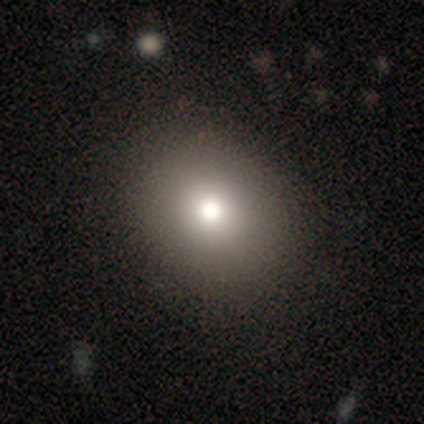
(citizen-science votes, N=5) Volunteers were most divided on "how rounded": round: 75%, in between: 25%, cigar-shaped: 0%. More confident: merging — none (100%); smooth or featured — smooth (80%).